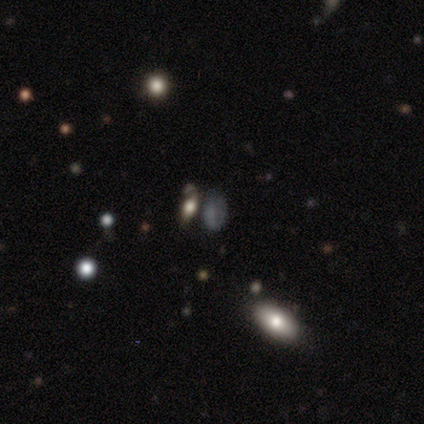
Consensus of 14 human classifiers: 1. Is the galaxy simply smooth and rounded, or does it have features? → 43% star or artifact, 36% smooth, 21% featured or disk.